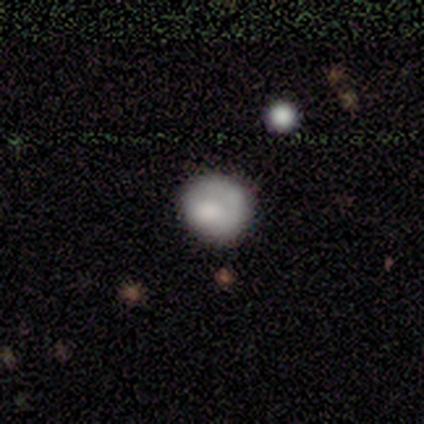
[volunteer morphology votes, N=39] Smooth or featured? 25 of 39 (64%) said smooth. How rounded? 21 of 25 (84%) said round. Merging? 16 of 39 (41%) said none.